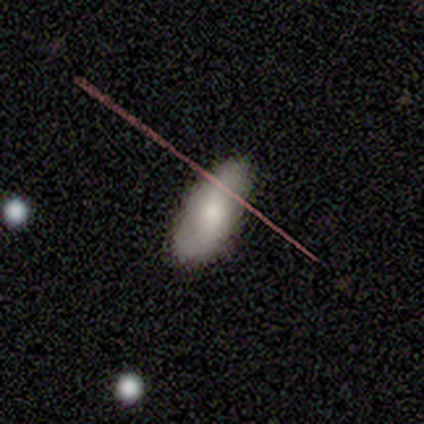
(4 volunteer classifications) This appears to be a featured or disk galaxy (50%) with no bar (100%), no spiral arms (100%) and a moderate central bulge (100%). Merging: none (67%).